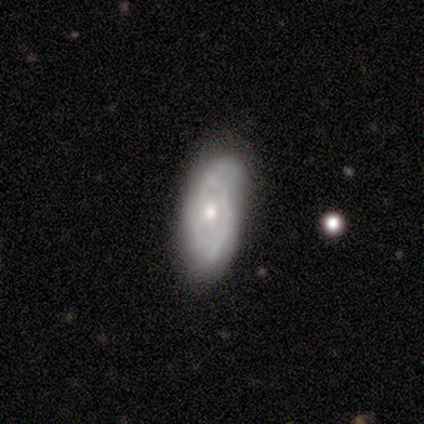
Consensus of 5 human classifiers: A featured or disk galaxy (60%) with no bar (100%), tight (100%) spiral arms (50%, tied with no) and a moderate central bulge (100%).

Vote fractions:
- Smooth or featured? featured or disk: 60% / smooth: 40% / star or artifact: 0%
- Edge-on disk? no: 67% / yes: 33%
- Bar? no: 100% / strong: 0% / weak: 0%
- Spiral arms? yes: 50% (tied) / no: 50% (tied)
- Spiral winding? tight: 100% / medium: 0% / loose: 0%
- Spiral arm count? can't tell: 100% / 1: 0% / 2: 0% / 3: 0% / 4: 0% / more than 4: 0%
- Bulge size? moderate: 100% / dominant: 0% / large: 0% / small: 0% / none: 0%
- Merging? none: 60% / minor disturbance: 40% / major disturbance: 0% / merger: 0%